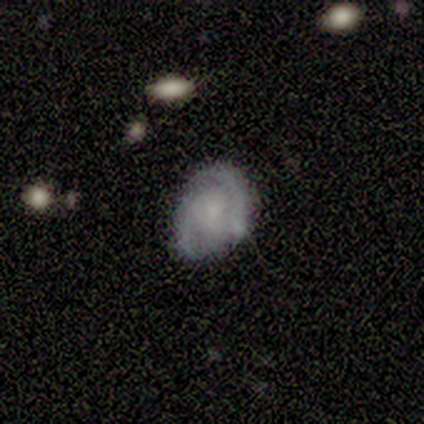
This is clearly a featured or disk galaxy (100%). It is clearly not viewed edge-on (100%). Bar: marginally weak (40%, tied with no). Spiral arm pattern: clearly yes (100%). Spiral arm count: likely 2 (60%). Spiral winding: clearly tight (80%). Central bulge: marginally small (40%). Merging: clearly none (80%).